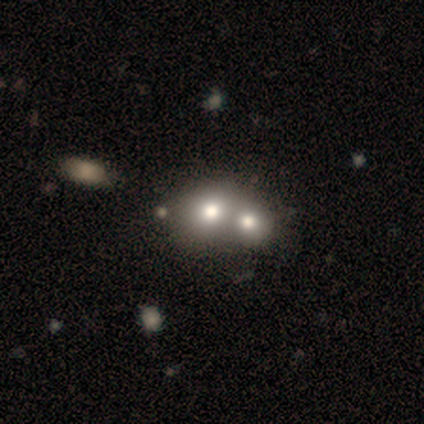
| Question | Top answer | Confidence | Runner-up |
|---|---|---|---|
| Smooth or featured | smooth | 40% | tied: featured or disk (40%) |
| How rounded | in between | 100% | — |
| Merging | merger | 75% | none (25%) |